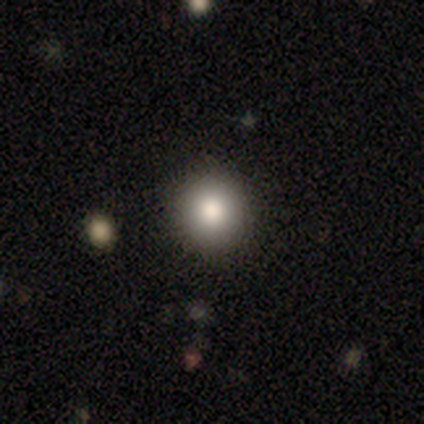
smooth 80%, star or artifact 20%, featured or disk 0%. Down the decision tree: how rounded — round (100%); merging — none (100%).